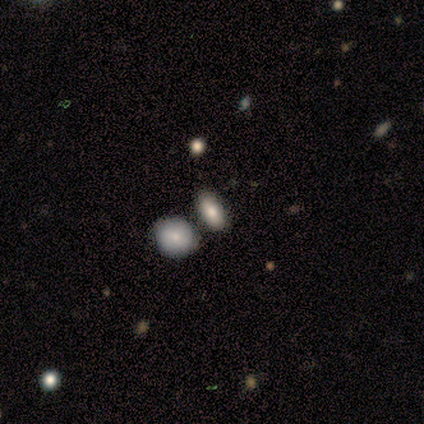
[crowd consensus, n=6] Smooth or featured? smooth (83%)
How rounded? in between (60%)
Merging? none (83%)